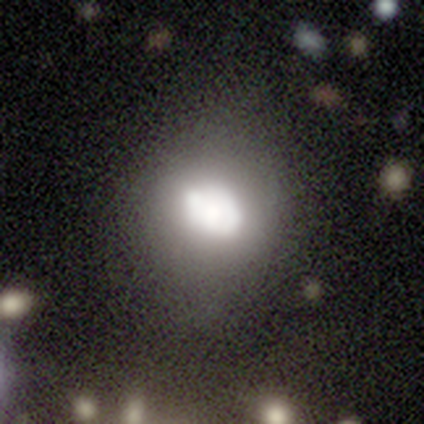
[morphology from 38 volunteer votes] Smooth or featured?
  - smooth: 61% *
  - featured or disk: 26%
  - star or artifact: 13%
How rounded?
  - in between: 65% *
  - round: 35%
  - cigar-shaped: 0%
Merging?
  - minor disturbance: 39% *
  - merger: 27%
  - none: 24%
  - major disturbance: 9%